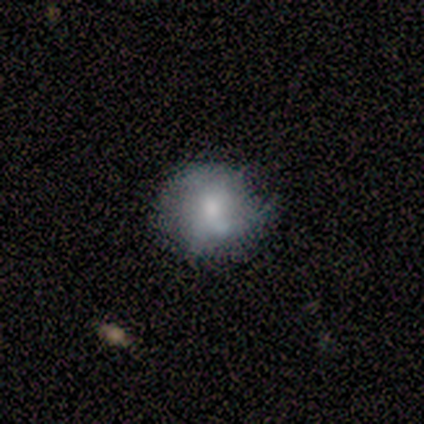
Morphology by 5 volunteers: Smooth or featured: smooth — 60% (featured or disk — 40%)
How rounded: round — 67% (in between — 33%)
Merging: none — 60% (minor disturbance — 20%)